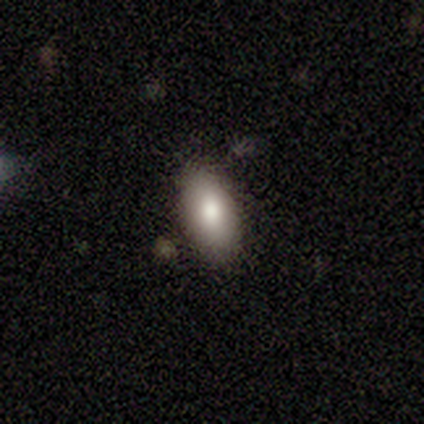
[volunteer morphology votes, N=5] This appears to be a smooth galaxy with no disk features (100%) that is in between round and cigar-shaped (100%). Merging: none (60%).